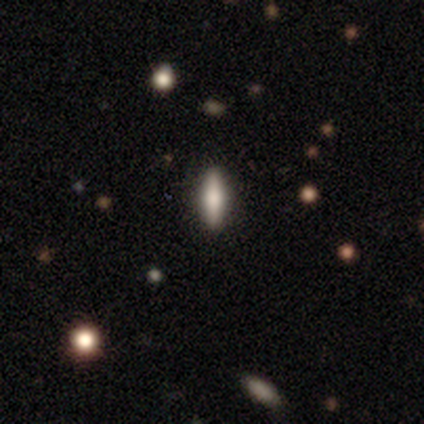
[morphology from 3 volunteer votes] smooth-or-featured: smooth: 67% | featured or disk: 33% | star or artifact: 0%
  how-rounded: in between: 100% | round: 0% | cigar-shaped: 0%
  merging: none: 100% | minor disturbance: 0% | major disturbance: 0% | merger: 0%